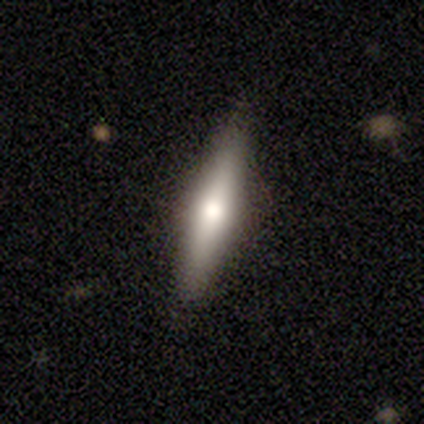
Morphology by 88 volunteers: Smooth or featured?
  - featured or disk: 47% *
  - smooth: 45%
  - star or artifact: 8%
Edge-on disk?
  - yes: 93% *
  - no: 7%
Edge-on bulge?
  - rounded: 89% *
  - none: 8%
  - boxy: 3%
Merging?
  - none: 85% *
  - minor disturbance: 12%
  - major disturbance: 2%
  - merger: 0%